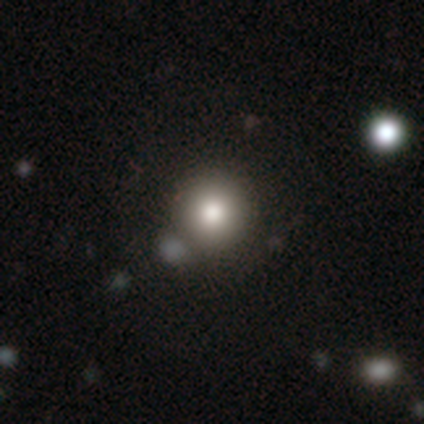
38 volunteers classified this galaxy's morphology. Overall: smooth (82%). How rounded: round (100%). Merging: none (47%; merger 12%).